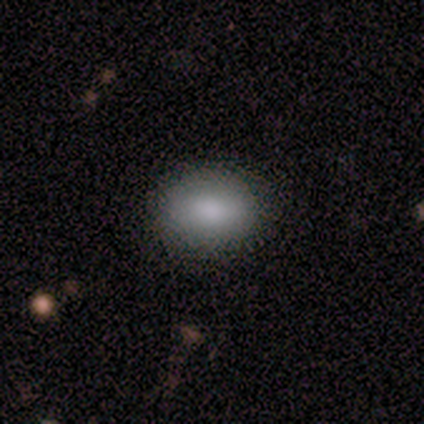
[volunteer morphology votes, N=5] Smooth or featured?
  - smooth: 100% *
  - featured or disk: 0%
  - star or artifact: 0%
How rounded?
  - in between: 80% *
  - round: 20%
  - cigar-shaped: 0%
Merging?
  - none: 100% *
  - minor disturbance: 0%
  - major disturbance: 0%
  - merger: 0%